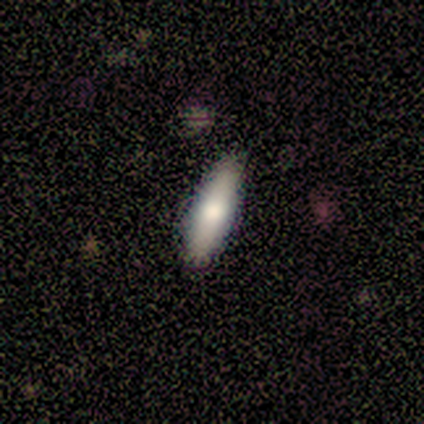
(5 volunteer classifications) This appears to be a smooth galaxy with no disk features (100%) that is cigar-shaped (60%). Merging: none (100%).